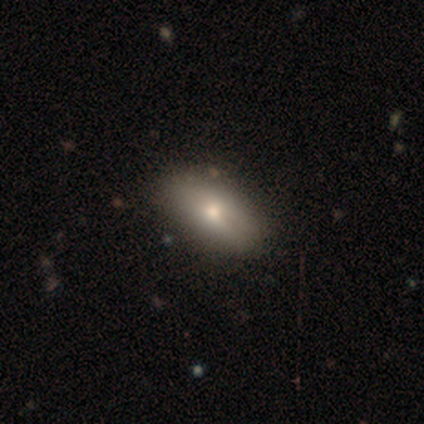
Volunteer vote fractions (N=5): This appears to be a smooth galaxy with no disk features (80%) that is in between round and cigar-shaped (100%). Merging: none (60%).